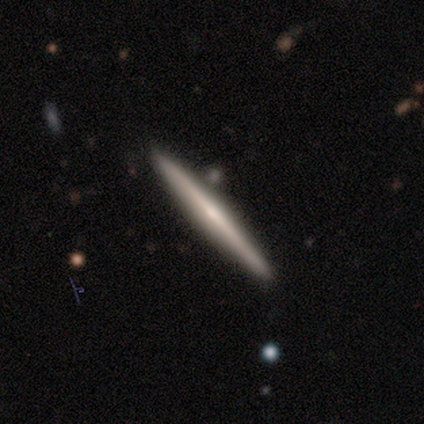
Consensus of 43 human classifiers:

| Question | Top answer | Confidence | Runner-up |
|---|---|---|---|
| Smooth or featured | featured or disk | 79% | smooth (14%) |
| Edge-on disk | yes | 97% | no (3%) |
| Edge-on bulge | rounded | 67% | none (33%) |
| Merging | none | 88% | minor disturbance (8%) |